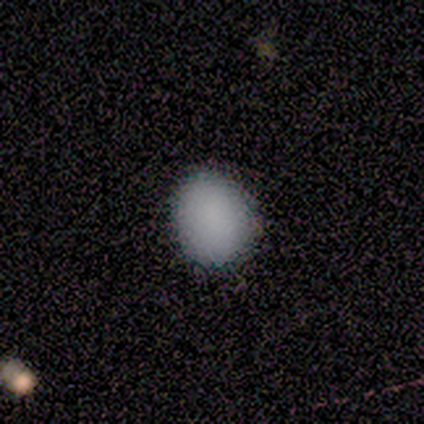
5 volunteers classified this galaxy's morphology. smooth-or-featured: smooth: 100% | featured or disk: 0% | star or artifact: 0%
  how-rounded: round: 60% | in between: 40% | cigar-shaped: 0%
  merging: none: 60% | minor disturbance: 40% | major disturbance: 0% | merger: 0%